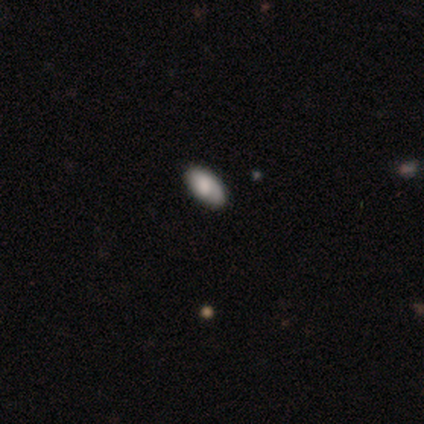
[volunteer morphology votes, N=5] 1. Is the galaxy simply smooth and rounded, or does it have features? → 40% smooth (tied), 40% featured or disk (tied), 20% star or artifact.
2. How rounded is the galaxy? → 100% in between, 0% round, 0% cigar-shaped.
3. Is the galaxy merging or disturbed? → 75% none, 25% minor disturbance, 0% major disturbance, 0% merger.